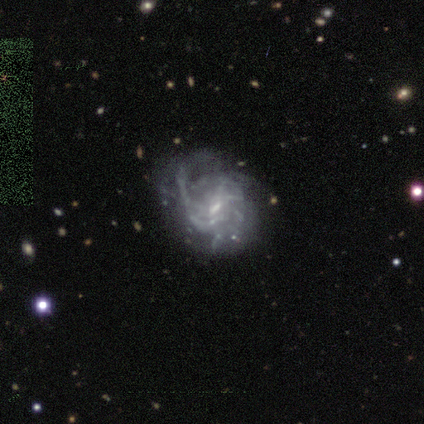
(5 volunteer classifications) This appears to be a featured or disk galaxy (80%) with no bar (50%), 4 (33%, tied with more than 4 and can't tell) medium (67%) spiral arms (75%) and a small central bulge (50%). Merging: major disturbance (60%).